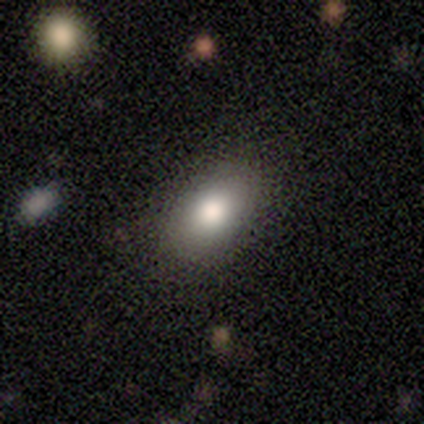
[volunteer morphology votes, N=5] This is likely a smooth galaxy (60%). How rounded: clearly in between (100%). Merging: clearly none (100%).